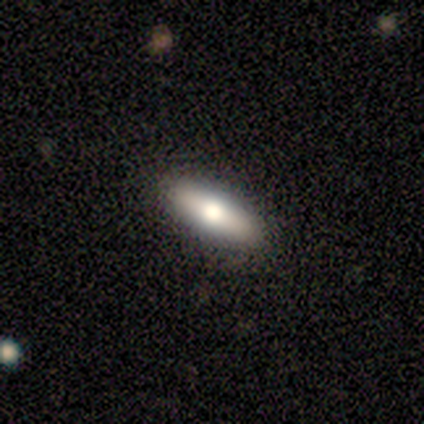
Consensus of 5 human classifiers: This is likely a featured or disk galaxy (60%). It is clearly viewed edge-on (100%). Edge-on bulge: clearly rounded (100%). Merging: clearly none (100%).